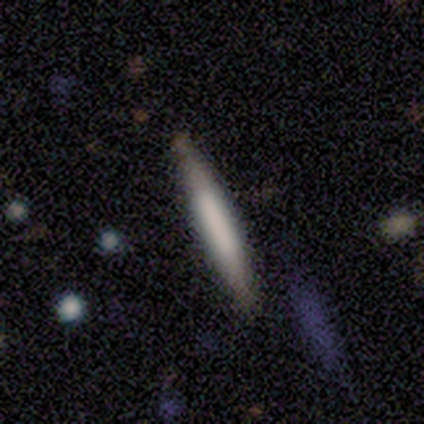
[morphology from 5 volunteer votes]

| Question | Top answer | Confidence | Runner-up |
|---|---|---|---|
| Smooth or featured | smooth | 80% | featured or disk (20%) |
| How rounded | cigar-shaped | 100% | — |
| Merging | none | 80% | minor disturbance (20%) |